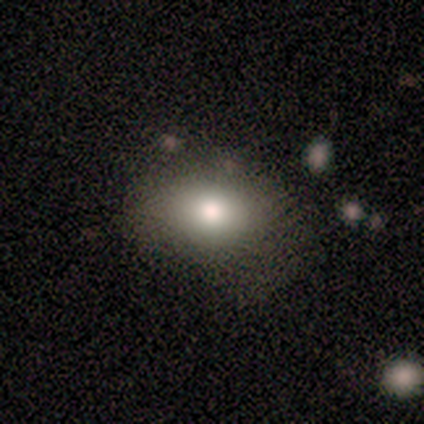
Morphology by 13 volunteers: Q: Smooth or featured?
A: smooth (85%); runner-up: star or artifact (15%)
Q: How rounded?
A: in between (73%); runner-up: round (27%)
Q: Merging?
A: none (55%); runner-up: minor disturbance (36%)